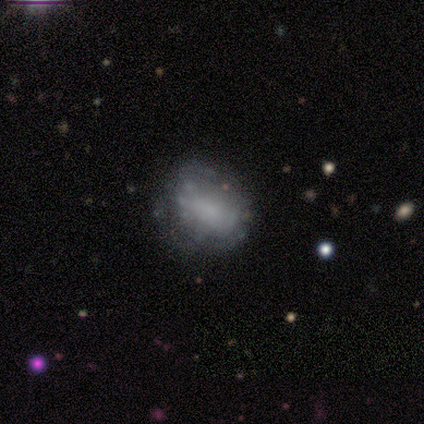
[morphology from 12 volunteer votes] type=featured or disk (58%); edge-on=no (100%); bar=no (71%); spiral arms=no (71%); bulge=small (43%); merging=none (67%).